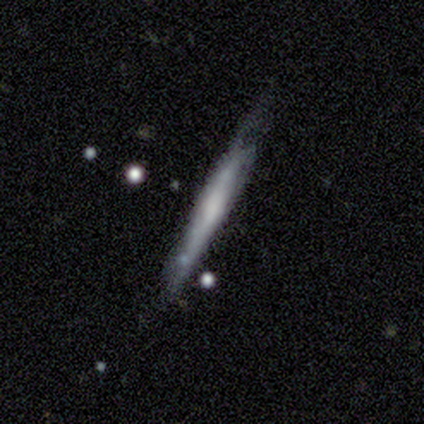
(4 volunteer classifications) This is likely a featured or disk galaxy (75%). It is clearly viewed edge-on (100%). Edge-on bulge: clearly none (100%). Merging: possibly none (50%, tied with minor disturbance).